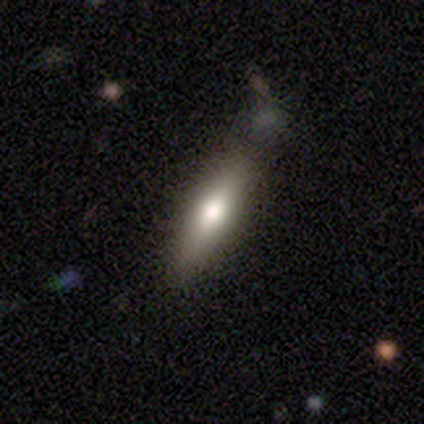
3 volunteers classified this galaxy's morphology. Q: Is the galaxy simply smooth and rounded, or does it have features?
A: smooth — 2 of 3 (67%).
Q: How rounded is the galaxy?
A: in between — 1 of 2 (50%, tied with cigar-shaped).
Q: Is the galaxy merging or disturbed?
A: none — 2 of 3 (67%).